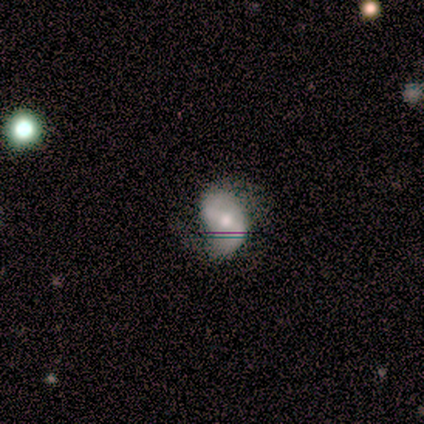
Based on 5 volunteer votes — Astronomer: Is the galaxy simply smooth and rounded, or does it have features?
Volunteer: featured or disk — 100%.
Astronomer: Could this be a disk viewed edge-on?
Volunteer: no — 100%.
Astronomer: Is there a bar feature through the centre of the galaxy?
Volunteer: strong — 80%.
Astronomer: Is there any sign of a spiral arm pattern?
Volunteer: yes — 100%.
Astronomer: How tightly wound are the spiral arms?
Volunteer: loose — 60% (runner-up: medium, 40%).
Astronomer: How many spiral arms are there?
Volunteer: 2 — 100%.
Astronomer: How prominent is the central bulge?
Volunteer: moderate — 80%.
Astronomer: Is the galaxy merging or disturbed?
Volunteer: none — 60% (runner-up: minor disturbance, 40%).